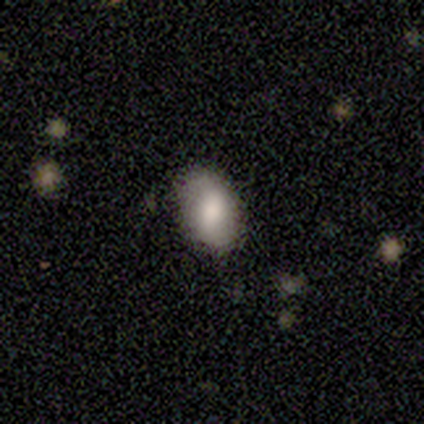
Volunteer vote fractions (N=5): smooth-or-featured: smooth: 60% | featured or disk: 20% | star or artifact: 20%
  how-rounded: in between: 100% | round: 0% | cigar-shaped: 0%
  merging: none: 50% (tied) | minor disturbance: 50% (tied) | major disturbance: 0% | merger: 0%